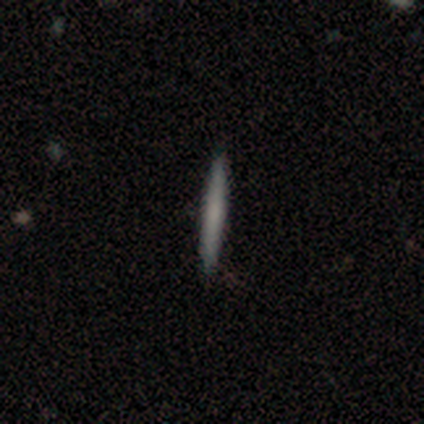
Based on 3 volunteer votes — A smooth galaxy with no disk features (100%) that is cigar-shaped (100%).

Vote fractions:
- Smooth or featured? smooth: 100% / featured or disk: 0% / star or artifact: 0%
- How rounded? cigar-shaped: 100% / round: 0% / in between: 0%
- Merging? none: 100% / minor disturbance: 0% / major disturbance: 0% / merger: 0%